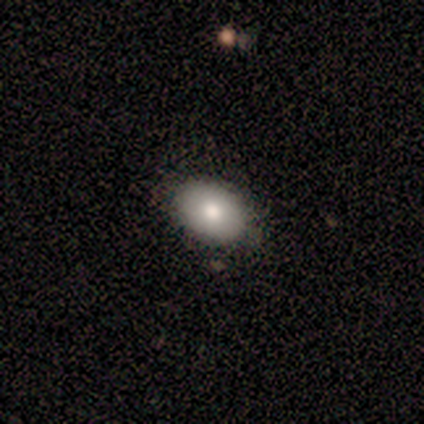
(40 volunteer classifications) Smooth or featured? 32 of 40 (80%) said smooth. How rounded? 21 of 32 (66%) said in between. Merging? 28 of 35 (80%) said none.